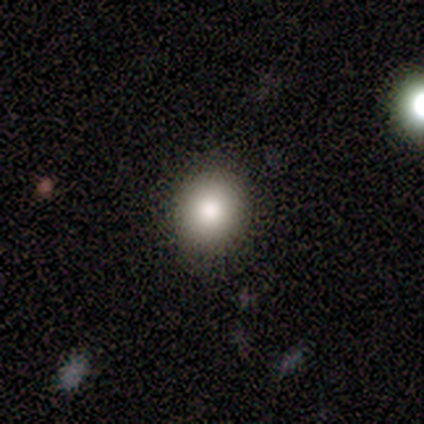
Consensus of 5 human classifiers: Smooth or featured: smooth — 100%
How rounded: round — 80% (in between — 20%)
Merging: none — 80% (merger — 20%)